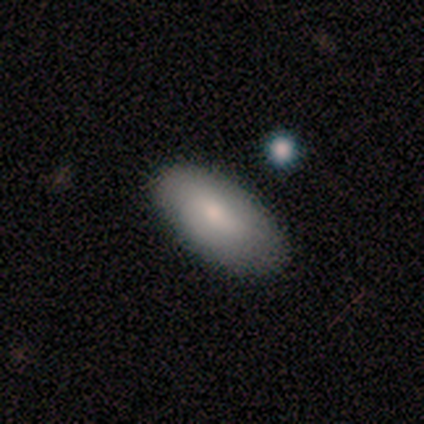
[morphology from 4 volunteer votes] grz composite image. It shows a smooth galaxy with no disk features (75%) that is in between round and cigar-shaped (100%). Merging: none (75%).